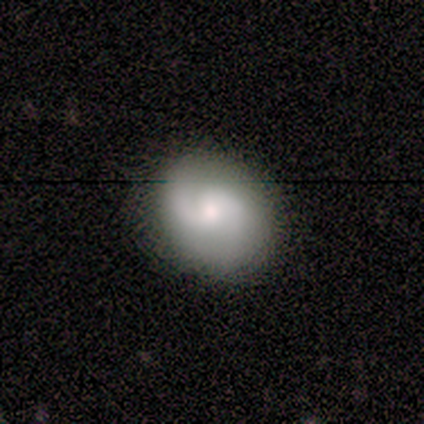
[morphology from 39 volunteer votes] Smooth or featured? 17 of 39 (44%) said smooth. How rounded? 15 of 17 (88%) said round. Merging? 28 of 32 (88%) said none.